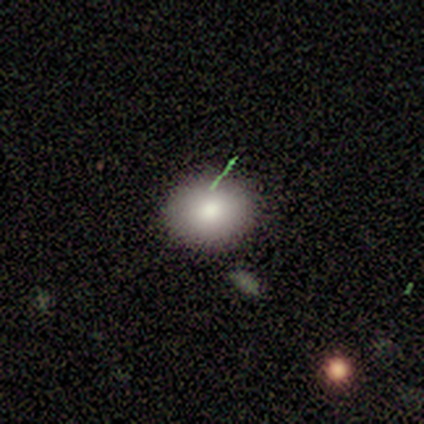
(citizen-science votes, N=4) Morphology: type=smooth (100%); roundness=in between (75%); merging=none (100%).